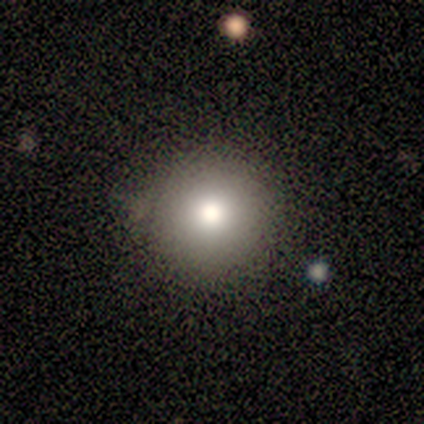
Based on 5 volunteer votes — Q: Smooth or featured?
A: smooth (60%); runner-up: star or artifact (40%)
Q: How rounded?
A: round (100%)
Q: Merging?
A: none (100%)